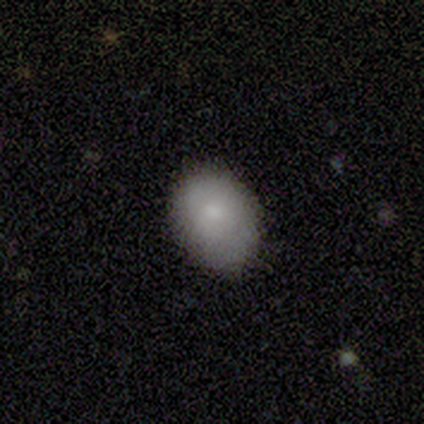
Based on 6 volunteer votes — Smooth or featured? smooth (67%)
How rounded? in between (100%)
Merging? none (83%)